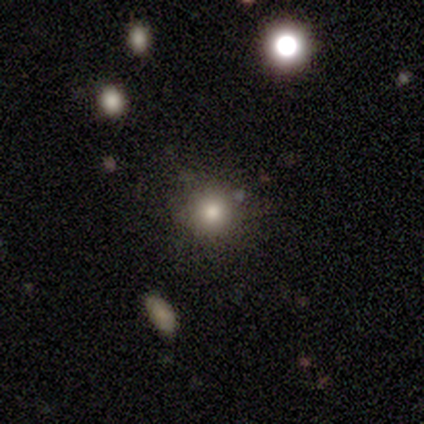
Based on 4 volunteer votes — Q: Smooth or featured?
A: smooth (100%)
Q: How rounded?
A: round (100%)
Q: Merging?
A: none (100%)